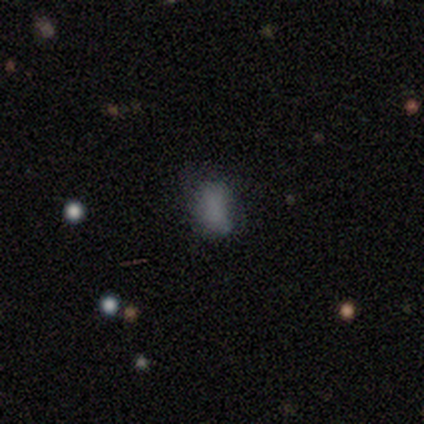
Volunteers were most divided on "how rounded": in between: 57%, round: 43%, cigar-shaped: 0%. More confident: smooth or featured — smooth (100%); merging — none (86%).